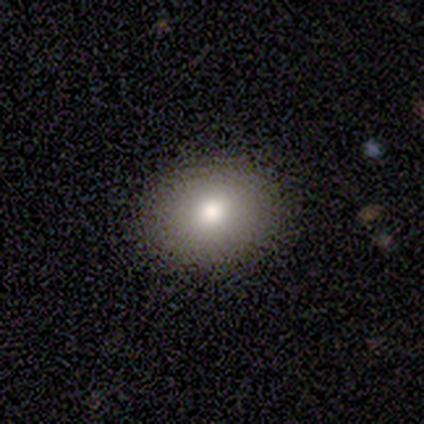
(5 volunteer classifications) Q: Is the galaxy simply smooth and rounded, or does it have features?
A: smooth — 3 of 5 (60%).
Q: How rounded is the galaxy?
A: in between — 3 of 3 (100%).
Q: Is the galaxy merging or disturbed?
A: none — 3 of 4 (75%).